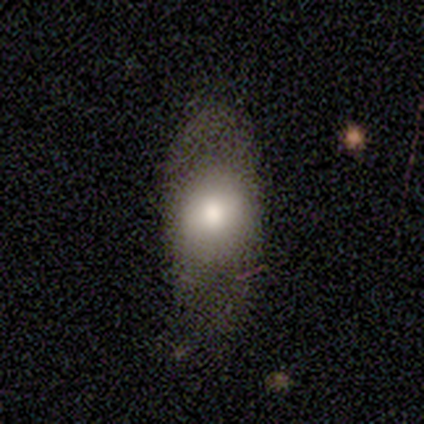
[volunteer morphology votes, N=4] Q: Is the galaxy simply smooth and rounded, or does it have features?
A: smooth — 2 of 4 (50%).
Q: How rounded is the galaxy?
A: round — 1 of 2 (50%, tied with in between).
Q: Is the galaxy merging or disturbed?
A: none — 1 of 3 (33%, tied with minor disturbance and major disturbance).